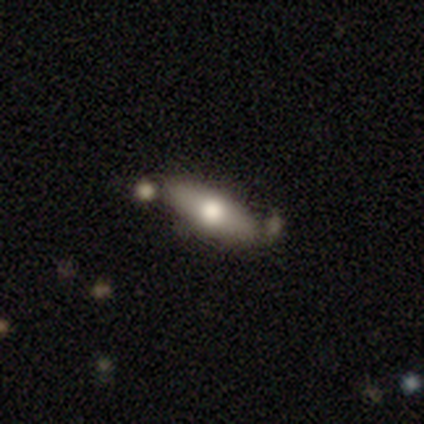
A smooth galaxy with no disk features (60%) that is in between round and cigar-shaped (100%).

Vote fractions:
- Smooth or featured? smooth: 60% / featured or disk: 40% / star or artifact: 0%
- How rounded? in between: 100% / round: 0% / cigar-shaped: 0%
- Merging? none: 100% / minor disturbance: 0% / major disturbance: 0% / merger: 0%